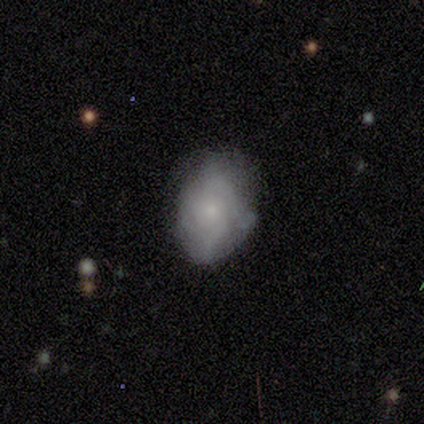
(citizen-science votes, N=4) Smooth or featured?
  - smooth: 50% * (tied)
  - featured or disk: 50% * (tied)
  - star or artifact: 0%
How rounded?
  - round: 50% * (tied)
  - in between: 50% * (tied)
  - cigar-shaped: 0%
Merging?
  - none: 75% *
  - minor disturbance: 25%
  - major disturbance: 0%
  - merger: 0%